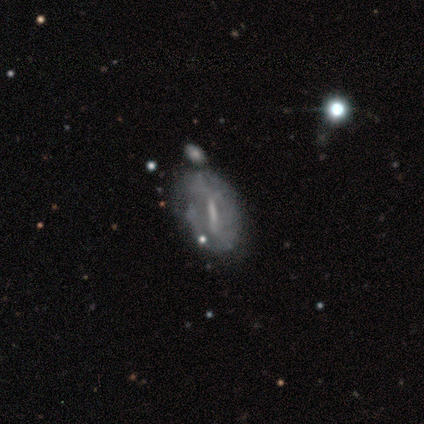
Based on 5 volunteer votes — smooth 40% (tied), featured or disk 40% (tied), star or artifact 20%. Down the decision tree: how rounded — round (50%, tied with in between); merging — none (75%).